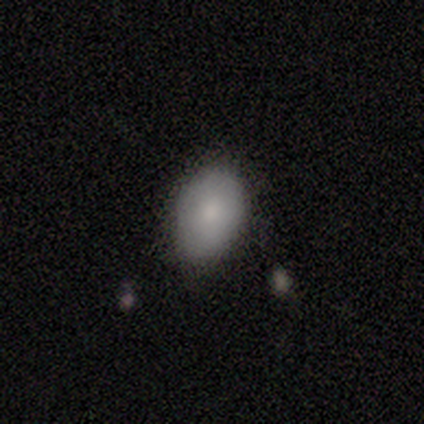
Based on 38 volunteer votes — Smooth or featured? 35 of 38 (92%) said smooth. How rounded? 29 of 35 (83%) said in between. Merging? 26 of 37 (70%) said none.